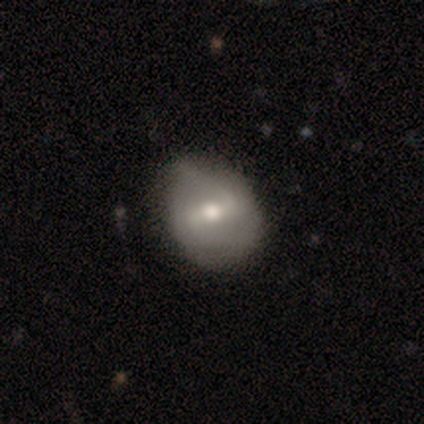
A featured or disk galaxy (80%) with a strong bar (50%, tied with weak), 2 (67%) medium (67%) spiral arms (75%) and a moderate central bulge (75%). Merging: none (60%).